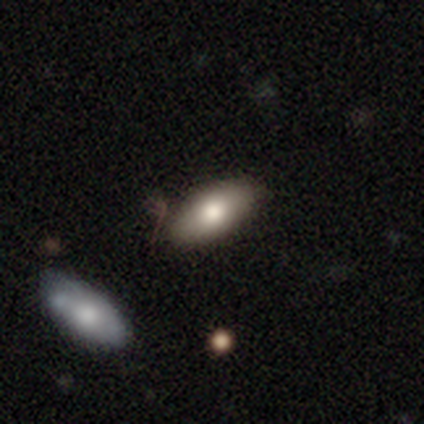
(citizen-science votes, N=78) smooth 79%, featured or disk 15%, star or artifact 5%. Down the decision tree: how rounded — in between (92%); merging — none (38%).